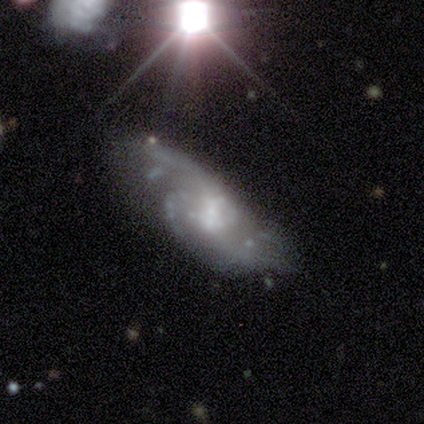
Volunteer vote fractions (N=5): smooth-or-featured: featured or disk: 100% | smooth: 0% | star or artifact: 0%
  disk-edge-on: no: 100% | yes: 0%
    bar: no: 80% | weak: 20% | strong: 0%
    has-spiral-arms: yes: 100% | no: 0%
      spiral-winding: tight: 60% | medium: 20% | loose: 20%
      spiral-arm-count: 1: 20% (tied) | 2: 20% (tied) | 3: 20% (tied) | 4: 20% (tied) | can't tell: 20% (tied) | more than 4: 0%
    bulge-size: small: 60% | large: 20% | moderate: 20% | dominant: 0% | none: 0%
  merging: none: 100% | minor disturbance: 0% | major disturbance: 0% | merger: 0%